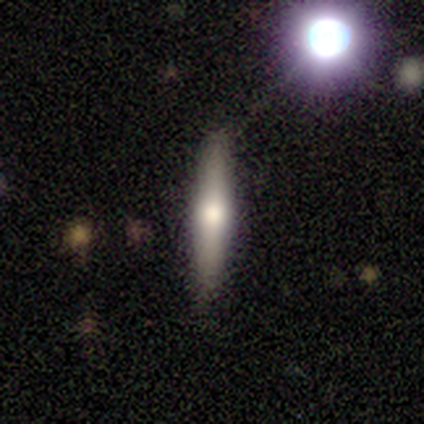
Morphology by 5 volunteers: Overall: featured or disk (60%; smooth 40%). Edge-on disk: yes (100%). Edge-on bulge: rounded (100%). Merging: none (100%).